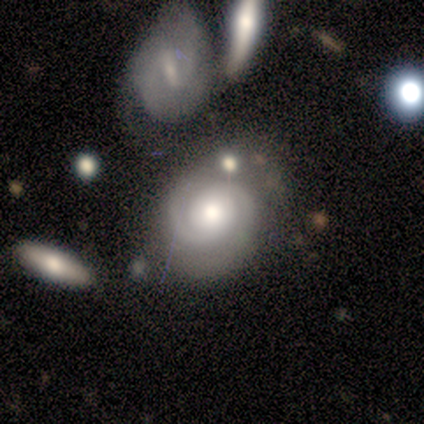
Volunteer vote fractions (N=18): featured or disk 61%, smooth 28%, star or artifact 11%. Down the decision tree: edge-on disk — no (100%); bar — no (91%); spiral arms — yes (100%); spiral arm count — 2 (82%); spiral winding — medium (45%); bulge size — large (36%, tied with moderate); merging — merger (38%).